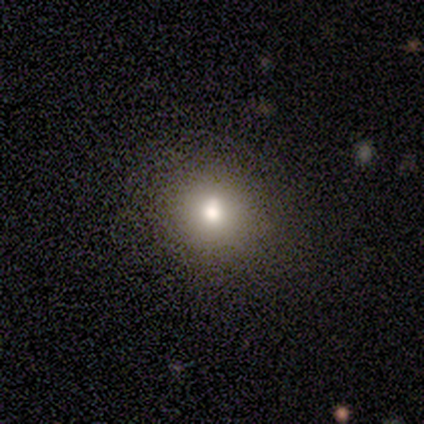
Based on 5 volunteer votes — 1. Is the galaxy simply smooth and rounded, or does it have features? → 60% smooth, 20% featured or disk, 20% star or artifact.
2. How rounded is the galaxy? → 100% round, 0% in between, 0% cigar-shaped.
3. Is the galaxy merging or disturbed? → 100% none, 0% minor disturbance, 0% major disturbance, 0% merger.